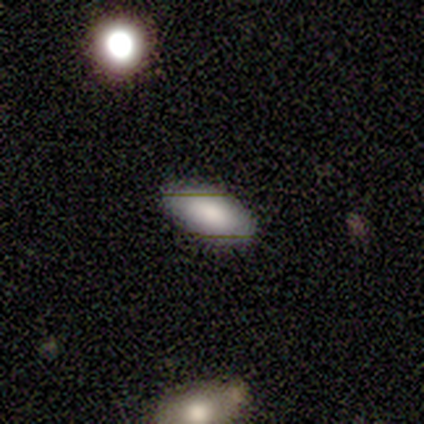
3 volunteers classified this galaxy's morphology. smooth_or_featured: smooth (p=0.67) [alt: featured or disk p=0.33]
how_rounded: round (p=0.50) [tied with: in between p=0.50]
merging: none (p=1.00)